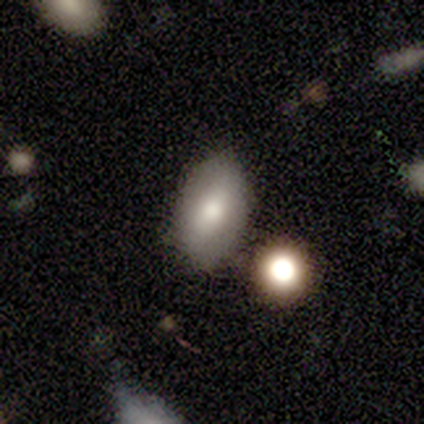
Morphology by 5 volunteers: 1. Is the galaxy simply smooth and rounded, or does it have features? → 60% smooth, 40% featured or disk, 0% star or artifact.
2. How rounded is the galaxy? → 100% in between, 0% round, 0% cigar-shaped.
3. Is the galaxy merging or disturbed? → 60% none, 20% minor disturbance, 20% merger, 0% major disturbance.